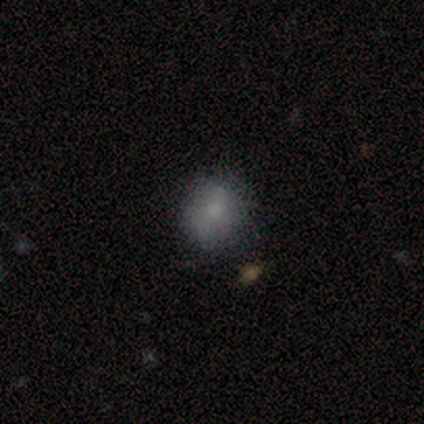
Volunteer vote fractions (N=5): smooth_or_featured: smooth (p=1.00)
how_rounded: round (p=1.00)
merging: none (p=1.00)